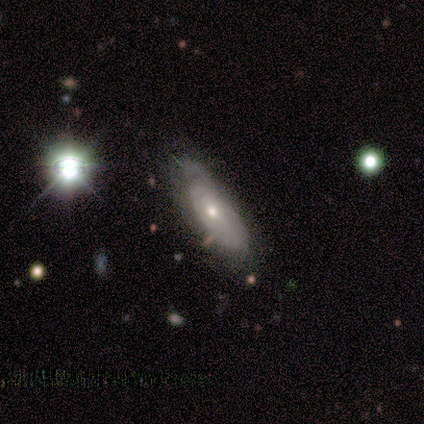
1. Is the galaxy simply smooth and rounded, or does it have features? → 60% featured or disk, 20% smooth, 20% star or artifact.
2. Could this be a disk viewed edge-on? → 100% no, 0% yes.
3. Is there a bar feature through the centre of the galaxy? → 100% no, 0% strong, 0% weak.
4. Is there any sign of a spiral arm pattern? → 67% yes, 33% no.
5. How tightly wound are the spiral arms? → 50% tight (tied), 50% loose (tied), 0% medium.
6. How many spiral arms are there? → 50% 2 (tied), 50% can't tell (tied), 0% 1, 0% 3, 0% 4, 0% more than 4.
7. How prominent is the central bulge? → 67% moderate, 33% small, 0% dominant, 0% large, 0% none.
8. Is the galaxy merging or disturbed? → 75% none, 25% major disturbance, 0% minor disturbance, 0% merger.